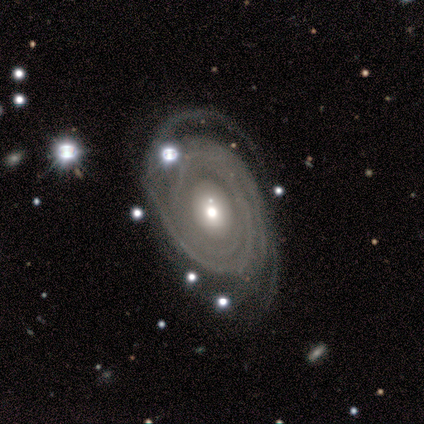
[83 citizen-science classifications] This is clearly a featured or disk galaxy (94%). It is clearly not viewed edge-on (96%). Bar: clearly no (89%). Spiral arm pattern: clearly yes (93%). Spiral arm count: marginally 3 (33%). Spiral winding: clearly tight (86%). Central bulge: likely moderate (67%). Merging: possibly none (55%).